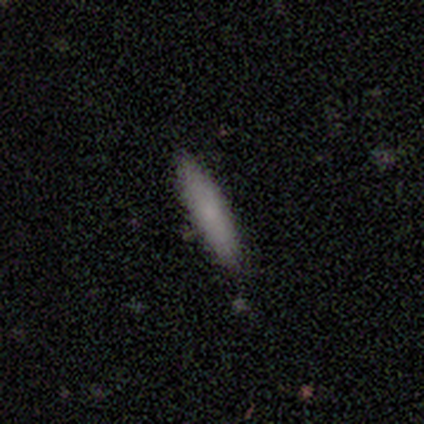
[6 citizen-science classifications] Q: Smooth or featured?
A: smooth (67%); runner-up: featured or disk (17%)
Q: How rounded?
A: cigar-shaped (75%); runner-up: in between (25%)
Q: Merging?
A: none (80%); runner-up: minor disturbance (20%)